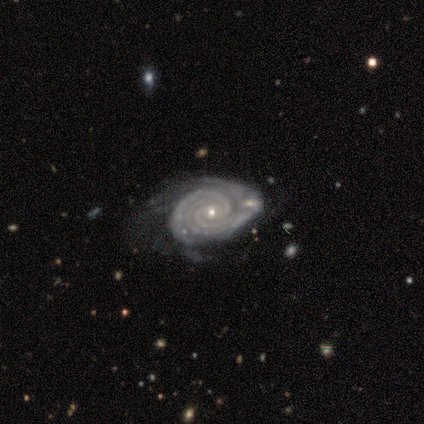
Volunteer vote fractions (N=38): smooth_or_featured: featured or disk (p=0.89) [alt: smooth p=0.05]
disk_edge_on: no (p=0.94) [alt: yes p=0.06]
bar: no (p=0.75) [alt: strong p=0.16]
has_spiral_arms: yes (p=0.97) [alt: no p=0.03]
spiral_winding: tight (p=0.90) [alt: medium p=0.06]
spiral_arm_count: 2 (p=0.35) [alt: 3 p=0.29]
bulge_size: small (p=0.78) [alt: moderate p=0.22]
merging: none (p=0.39) [alt: minor disturbance p=0.36]